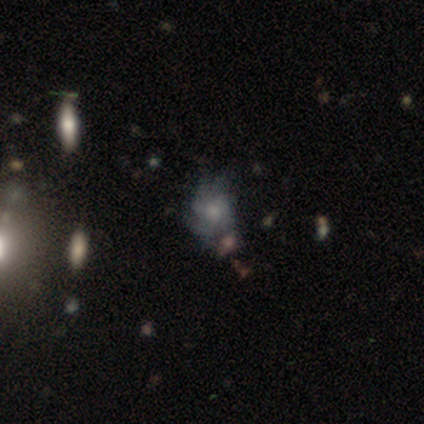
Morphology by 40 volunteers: Overall: featured or disk (65%; smooth 30%). Edge-on disk: no (100%). Bar: no (85%). Spiral arms: yes (73%). Spiral arm count: can't tell (63%). Spiral winding: tight (53%; loose 26%). Bulge size: small (58%; moderate 27%). Merging: none (68%).